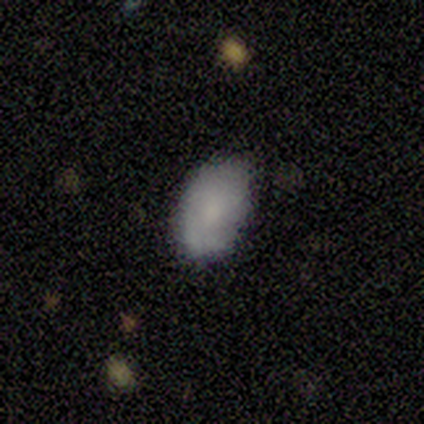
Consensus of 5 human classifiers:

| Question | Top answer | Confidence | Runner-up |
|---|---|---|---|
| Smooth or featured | smooth | 80% | featured or disk (20%) |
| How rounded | in between | 75% | round (25%) |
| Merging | minor disturbance | 60% | none (40%) |